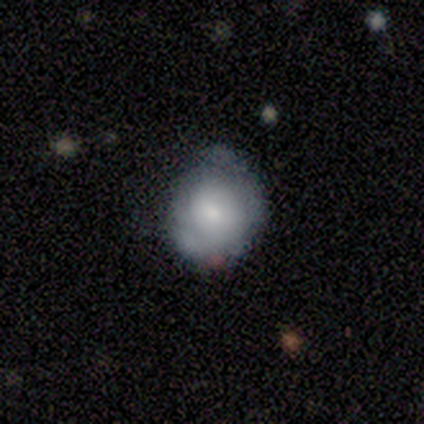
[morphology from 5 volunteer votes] A smooth galaxy with no disk features (60%) that is round (67%). Merging: minor disturbance (60%).